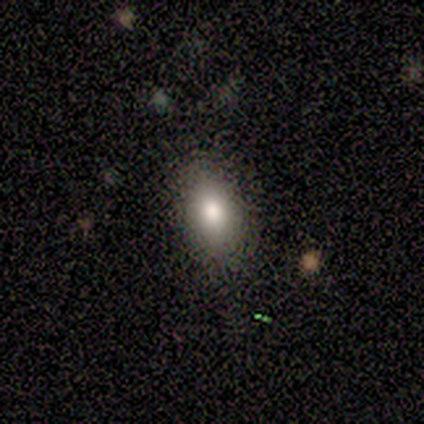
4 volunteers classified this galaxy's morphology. This appears to be a smooth galaxy with no disk features (50%) that is round (50%, tied with in between). Merging: none (100%).